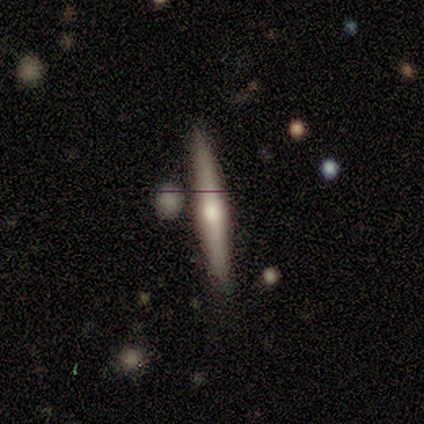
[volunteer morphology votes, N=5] smooth_or_featured: featured or disk (p=0.60) [alt: smooth p=0.20]
disk_edge_on: yes (p=0.67) [alt: no p=0.33]
edge_on_bulge: rounded (p=1.00)
merging: none (p=1.00)